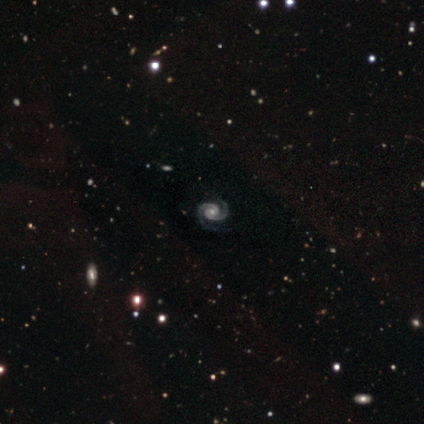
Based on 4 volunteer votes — featured or disk 75%, smooth 25%, star or artifact 0%. Down the decision tree: edge-on disk — no (100%); bar — no (67%); spiral arms — yes (100%); spiral arm count — 2 (100%); spiral winding — tight (67%); bulge size — small (67%); merging — none (75%).